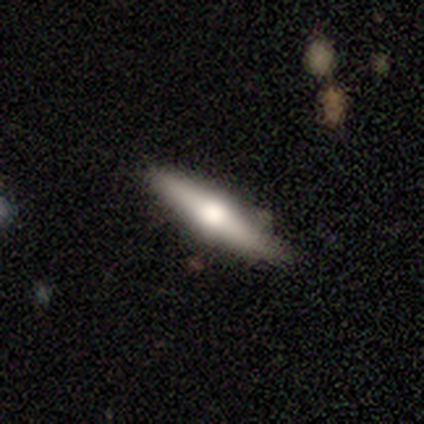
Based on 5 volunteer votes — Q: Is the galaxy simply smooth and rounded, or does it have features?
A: smooth — 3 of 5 (60%).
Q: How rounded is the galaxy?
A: cigar-shaped — 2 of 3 (67%).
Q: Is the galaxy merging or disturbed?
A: none — 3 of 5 (60%).